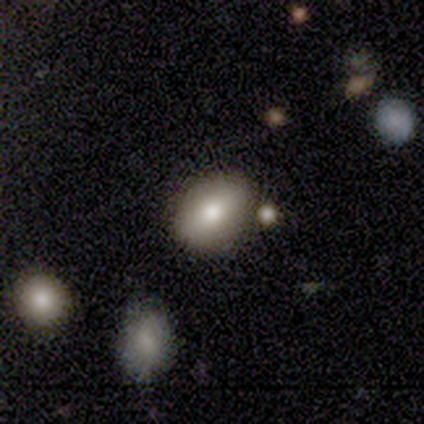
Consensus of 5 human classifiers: Smooth or featured? 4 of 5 (80%) said smooth. How rounded? 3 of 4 (75%) said in between. Merging? 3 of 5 (60%) said none.